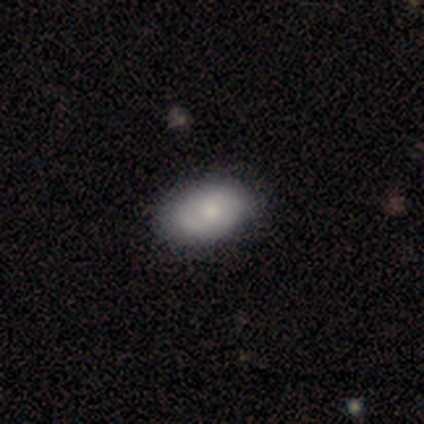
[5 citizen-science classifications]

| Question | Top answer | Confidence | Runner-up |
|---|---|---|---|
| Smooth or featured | smooth | 80% | featured or disk (20%) |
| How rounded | in between | 100% | — |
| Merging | none | 100% | — |